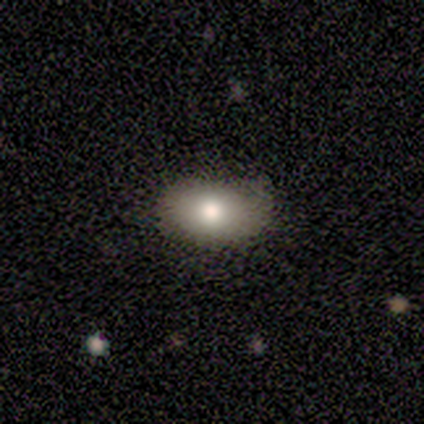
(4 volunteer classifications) Smooth or featured?
  - smooth: 100% *
  - featured or disk: 0%
  - star or artifact: 0%
How rounded?
  - round: 50% * (tied)
  - in between: 50% * (tied)
  - cigar-shaped: 0%
Merging?
  - none: 100% *
  - minor disturbance: 0%
  - major disturbance: 0%
  - merger: 0%